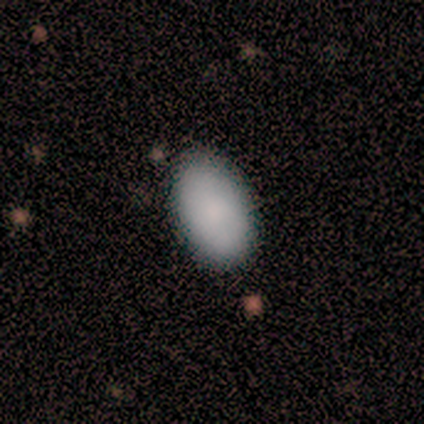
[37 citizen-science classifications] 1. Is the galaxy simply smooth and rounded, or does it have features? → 86% smooth, 8% featured or disk, 5% star or artifact.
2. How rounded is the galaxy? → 100% in between, 0% round, 0% cigar-shaped.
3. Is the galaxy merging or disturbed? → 94% none, 3% minor disturbance, 3% major disturbance, 0% merger.